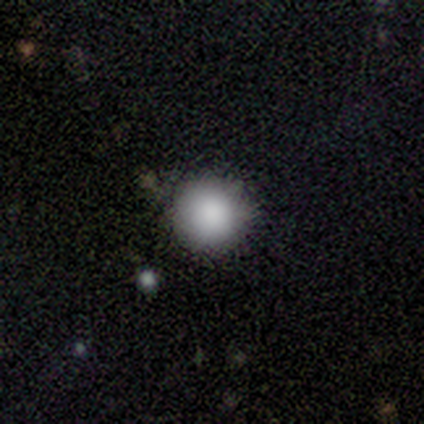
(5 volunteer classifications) Smooth or featured?
  - smooth: 80% *
  - featured or disk: 20%
  - star or artifact: 0%
How rounded?
  - round: 100% *
  - in between: 0%
  - cigar-shaped: 0%
Merging?
  - none: 60% *
  - minor disturbance: 40%
  - major disturbance: 0%
  - merger: 0%